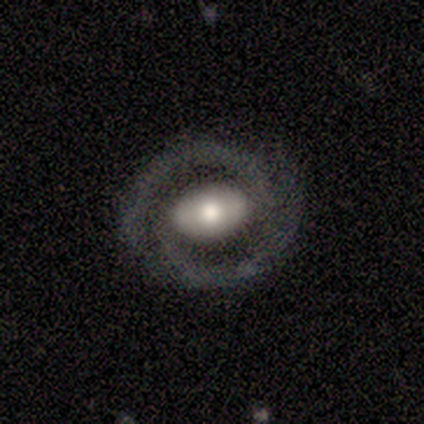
A featured or disk galaxy (60%) with no bar (100%), 2 (100%) tight (100%) spiral arms (100%) and a moderate central bulge (67%). Merging: none (67%).